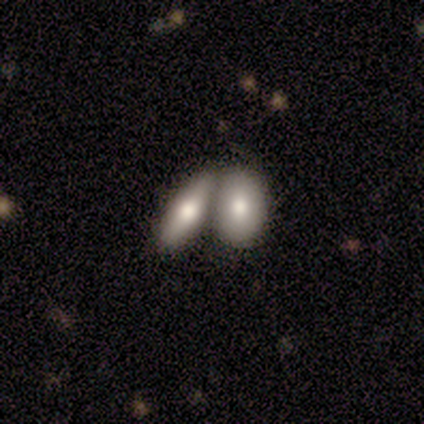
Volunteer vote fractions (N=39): This appears to be a smooth galaxy with no disk features (74%) that is in between round and cigar-shaped (83%). Merging: merger (71%).